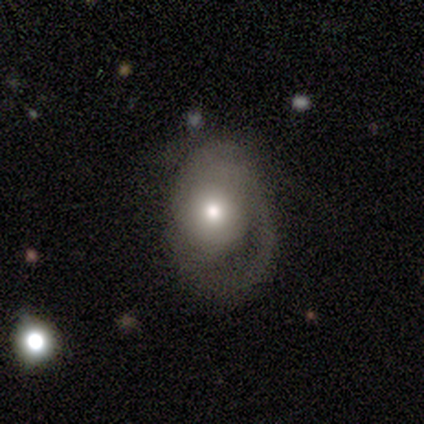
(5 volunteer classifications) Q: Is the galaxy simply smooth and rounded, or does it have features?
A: smooth — 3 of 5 (60%).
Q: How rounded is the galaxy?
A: round — 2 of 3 (67%).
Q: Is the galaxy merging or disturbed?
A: major disturbance — 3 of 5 (60%).